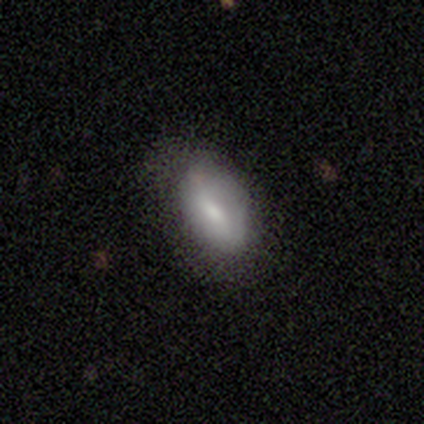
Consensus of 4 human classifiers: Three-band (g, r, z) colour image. It shows a smooth galaxy with no disk features (75%) that is in between round and cigar-shaped (100%). Merging: none (75%).